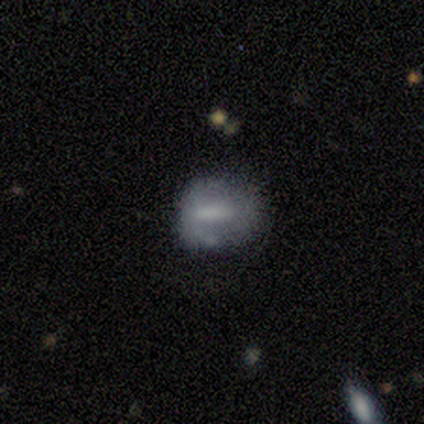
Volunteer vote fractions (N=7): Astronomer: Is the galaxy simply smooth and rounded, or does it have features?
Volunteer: smooth — 71%.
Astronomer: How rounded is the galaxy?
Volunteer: in between — 60% (runner-up: round, 40%).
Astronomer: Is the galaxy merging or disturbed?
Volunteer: none — 40%, tied with major disturbance at 40%.